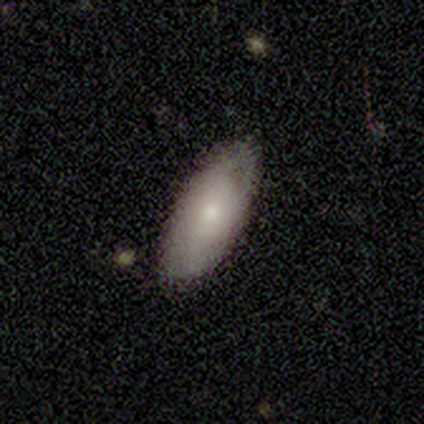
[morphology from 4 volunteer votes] A smooth galaxy with no disk features (75%) that is in between round and cigar-shaped (100%). Merging: none (67%).